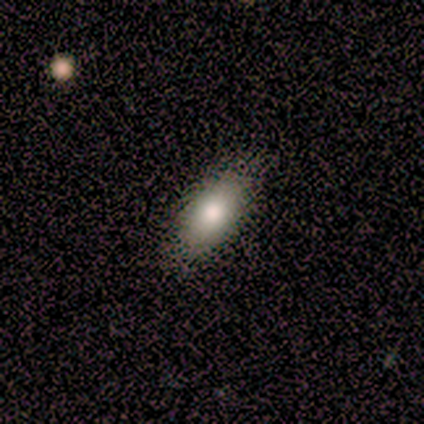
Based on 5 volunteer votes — This is clearly a smooth galaxy (100%). How rounded: clearly in between (100%). Merging: clearly none (100%).